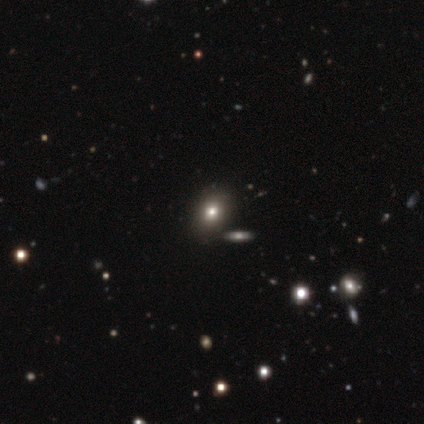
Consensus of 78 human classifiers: Smooth or featured? 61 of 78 (78%) said smooth. How rounded? 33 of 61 (54%) said round. Merging? 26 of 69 (38%) said none.